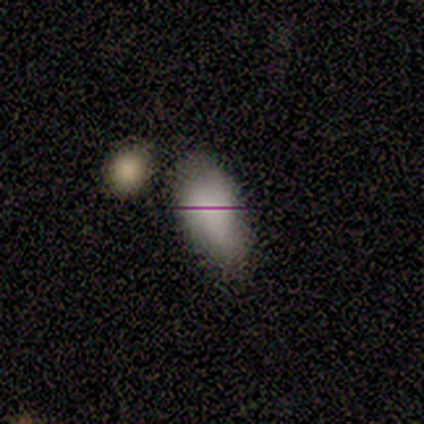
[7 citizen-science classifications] Q: Smooth or featured?
A: smooth (71%); runner-up: featured or disk (14%)
Q: How rounded?
A: in between (100%)
Q: Merging?
A: none (50%); runner-up: minor disturbance (33%)